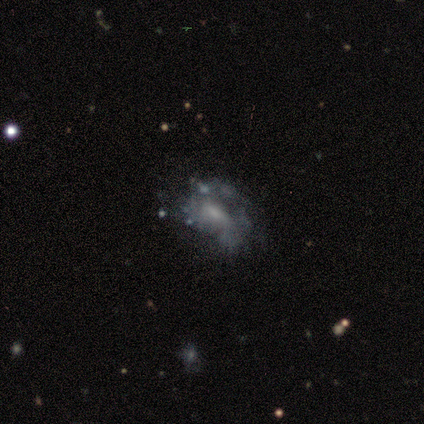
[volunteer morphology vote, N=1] A featured or disk galaxy (100%) with a weak bar (100%), no spiral arms (100%) and a small central bulge (100%). Merging: none (100%).